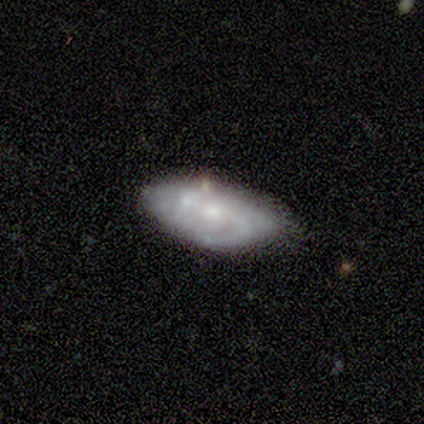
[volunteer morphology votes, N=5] Volunteers were most divided on "spiral winding" (3-way tie): tight: 33%, medium: 33%, loose: 33%; "spiral arm count" (3-way tie): 1: 33%, 2: 33%, can't tell: 33%, 3: 0%, 4: 0%, more than 4: 0%. More confident: edge-on disk — no (100%); spiral arms — yes (100%); bar — no (67%); bulge size — moderate (67%); smooth or featured — featured or disk (60%); merging — none (60%).